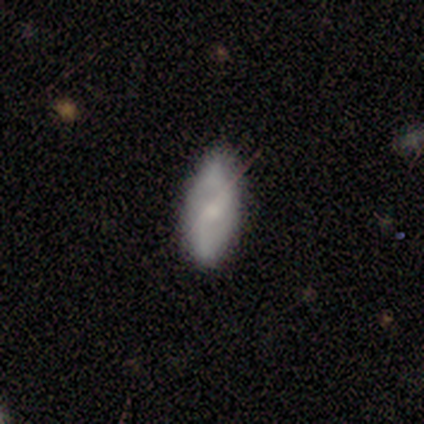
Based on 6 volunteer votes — smooth-or-featured: smooth: 67% | featured or disk: 33% | star or artifact: 0%
  how-rounded: in between: 50% | round: 25% | cigar-shaped: 25%
  merging: none: 100% | minor disturbance: 0% | major disturbance: 0% | merger: 0%